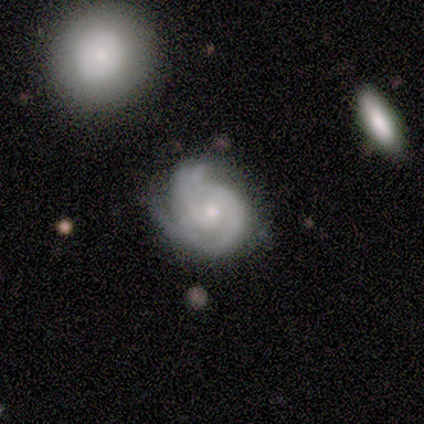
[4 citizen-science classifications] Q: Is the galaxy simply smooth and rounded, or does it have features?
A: featured or disk — 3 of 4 (75%).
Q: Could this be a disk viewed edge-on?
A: no — 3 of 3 (100%).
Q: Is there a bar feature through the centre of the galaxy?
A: no — 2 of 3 (67%).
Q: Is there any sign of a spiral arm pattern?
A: yes — 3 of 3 (100%).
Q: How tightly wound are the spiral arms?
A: tight — 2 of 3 (67%).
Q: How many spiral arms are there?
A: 2 — 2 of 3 (67%).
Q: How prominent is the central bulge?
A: small — 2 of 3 (67%).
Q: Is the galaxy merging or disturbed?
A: none — 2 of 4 (50%, tied with minor disturbance).